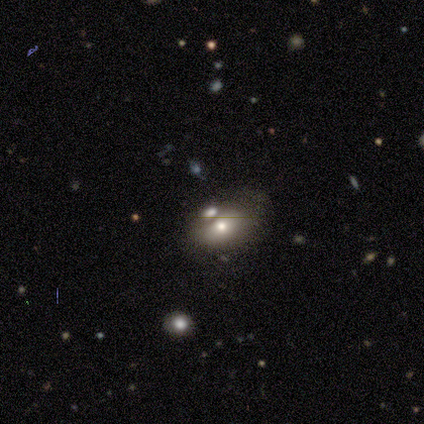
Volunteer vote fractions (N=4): Morphology: type=smooth (50%); roundness=in between (100%); merging=merger (67%).